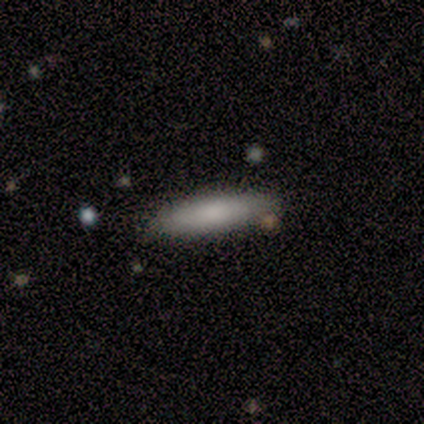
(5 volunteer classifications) A smooth galaxy with no disk features (60%) that is cigar-shaped (67%). Merging: none (100%).